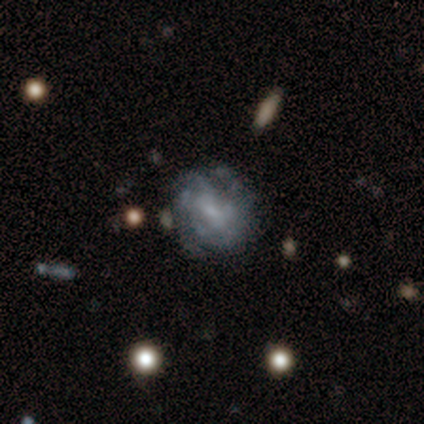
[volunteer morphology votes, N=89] featured or disk 80%, smooth 15%, star or artifact 6%. Down the decision tree: edge-on disk — no (97%); bar — no (55%); spiral arms — yes (81%); spiral arm count — can't tell (52%); spiral winding — tight (54%); bulge size — small (52%); merging — none (75%).